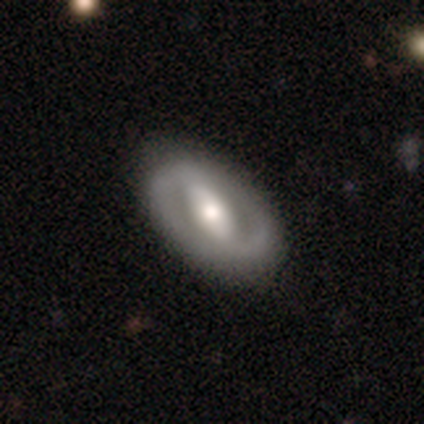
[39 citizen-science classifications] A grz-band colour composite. It shows a featured or disk galaxy (74%) with a strong bar (75%), 2 (94%) tight (50%) spiral arms (57%) and a moderate central bulge (68%). Merging: none (81%).